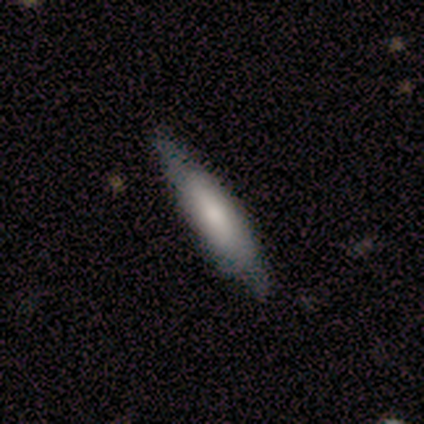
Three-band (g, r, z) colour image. It shows a smooth galaxy with no disk features (54%) that is cigar-shaped (86%). Merging: none (67%).